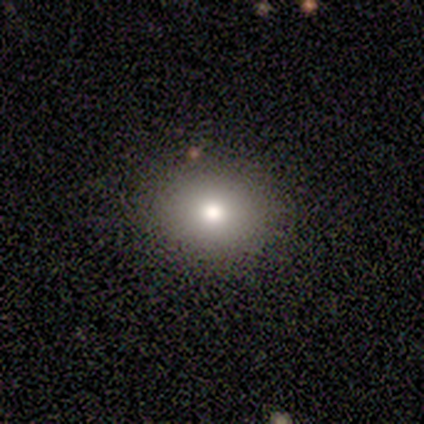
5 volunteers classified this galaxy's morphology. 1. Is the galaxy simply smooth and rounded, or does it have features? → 100% smooth, 0% featured or disk, 0% star or artifact.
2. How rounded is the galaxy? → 80% round, 20% in between, 0% cigar-shaped.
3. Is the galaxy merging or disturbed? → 100% none, 0% minor disturbance, 0% major disturbance, 0% merger.